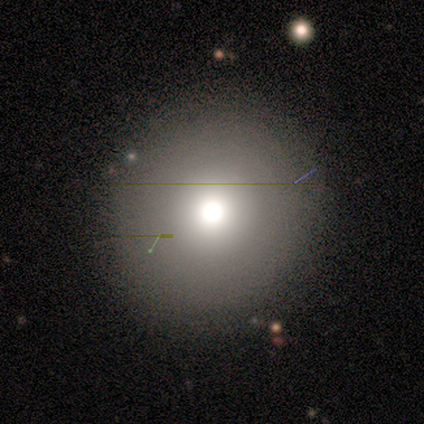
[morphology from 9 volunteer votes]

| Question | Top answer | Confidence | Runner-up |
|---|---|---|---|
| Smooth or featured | smooth | 89% | featured or disk (11%) |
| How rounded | round | 88% | in between (12%) |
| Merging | none | 67% | minor disturbance (33%) |